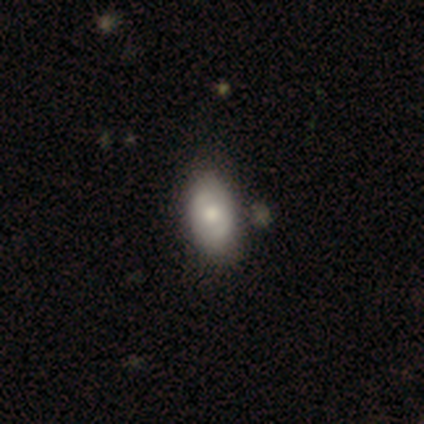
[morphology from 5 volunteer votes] Smooth or featured: smooth — 80% (featured or disk — 20%)
How rounded: in between — 75% (round — 25%)
Merging: none — 60% (minor disturbance — 40%)